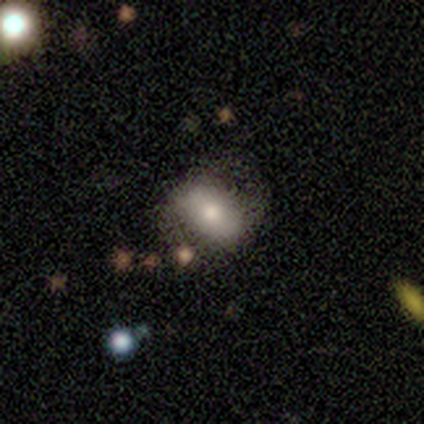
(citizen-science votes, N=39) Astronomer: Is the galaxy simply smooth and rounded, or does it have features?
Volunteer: smooth — 67%.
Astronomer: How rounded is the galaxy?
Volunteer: in between — 81%.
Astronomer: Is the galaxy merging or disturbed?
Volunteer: none — 57%.